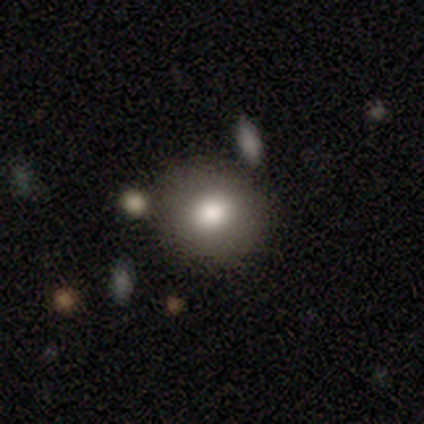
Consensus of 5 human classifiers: Smooth or featured? smooth (80%)
How rounded? round (100%)
Merging? none (100%)